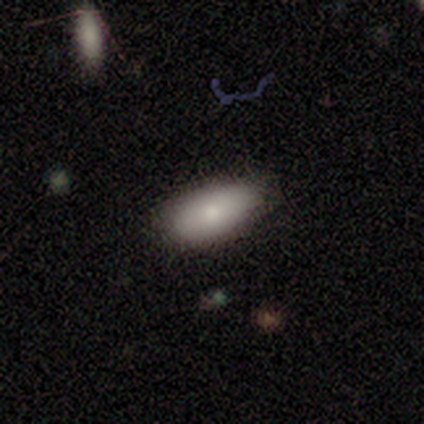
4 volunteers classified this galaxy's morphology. Q: Smooth or featured?
A: smooth (100%)
Q: How rounded?
A: in between (100%)
Q: Merging?
A: none (100%)